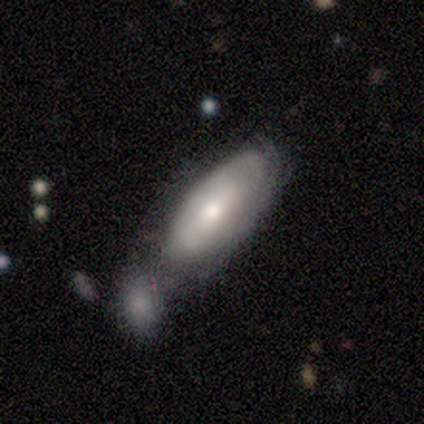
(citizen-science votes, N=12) This is possibly a smooth galaxy (58%). How rounded: possibly cigar-shaped (57%). Merging: likely merger (67%).